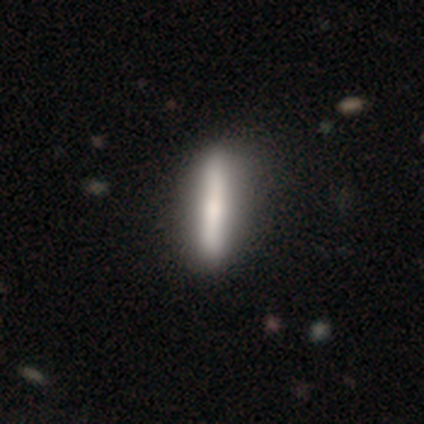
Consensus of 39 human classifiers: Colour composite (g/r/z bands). It shows a smooth galaxy with no disk features (49%, tied with featured or disk) that is cigar-shaped (89%). Merging: none (61%).